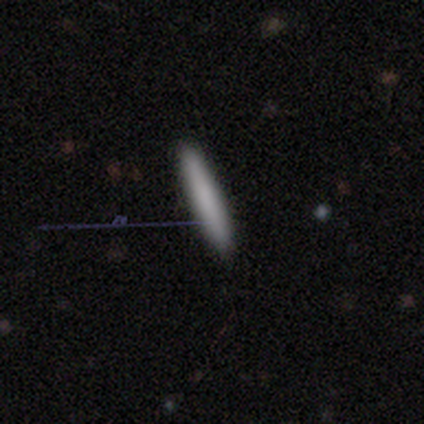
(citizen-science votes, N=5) This is clearly a smooth galaxy (100%). How rounded: clearly cigar-shaped (100%). Merging: clearly none (100%).